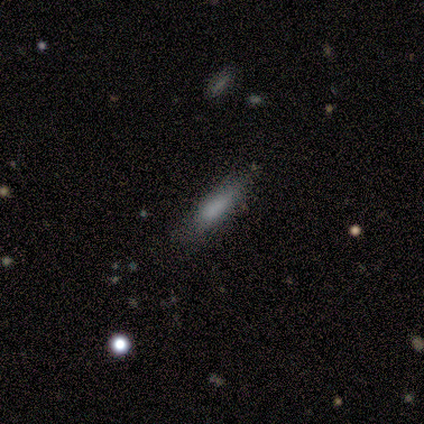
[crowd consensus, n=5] Smooth or featured? smooth (80%)
How rounded? in between (50%, tied with cigar-shaped)
Merging? none (40%, tied with minor disturbance)